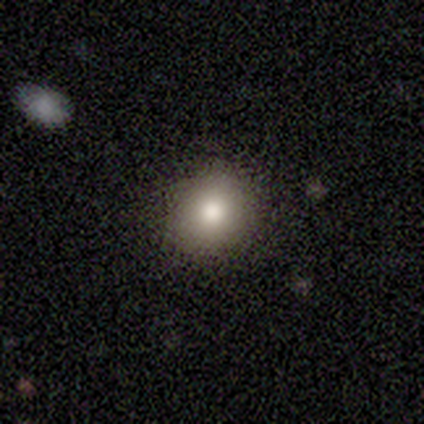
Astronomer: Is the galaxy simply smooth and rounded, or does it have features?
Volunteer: smooth — 92%.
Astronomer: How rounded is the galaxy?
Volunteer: round — 73%.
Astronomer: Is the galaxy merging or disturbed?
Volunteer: none — 100%.